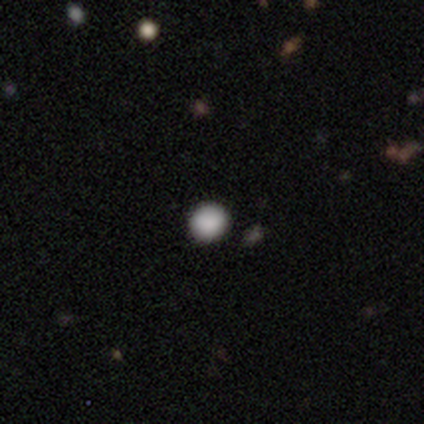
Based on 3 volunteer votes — smooth 100%, featured or disk 0%, star or artifact 0%. Down the decision tree: how rounded — round (67%); merging — none (100%).